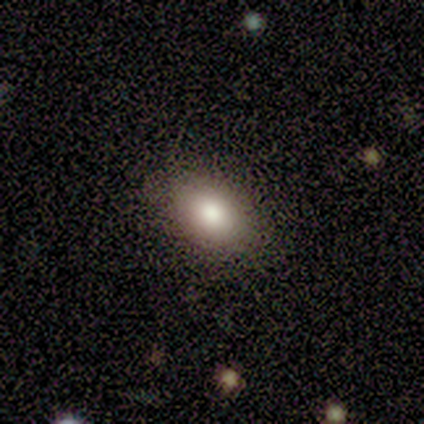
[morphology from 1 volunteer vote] Smooth or featured?
  - smooth: 100% *
  - featured or disk: 0%
  - star or artifact: 0%
How rounded?
  - in between: 100% *
  - round: 0%
  - cigar-shaped: 0%
Merging?
  - none: 100% *
  - minor disturbance: 0%
  - major disturbance: 0%
  - merger: 0%